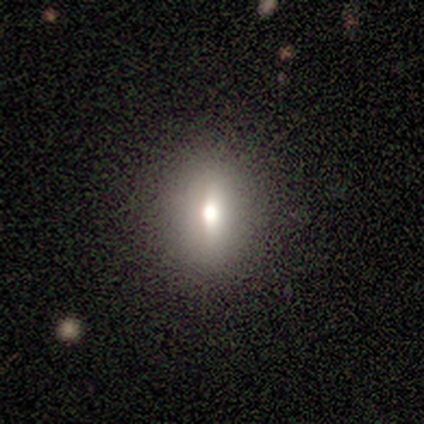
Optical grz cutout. It shows a smooth galaxy with no disk features (80%) that is round (50%, tied with in between). Merging: none (75%).